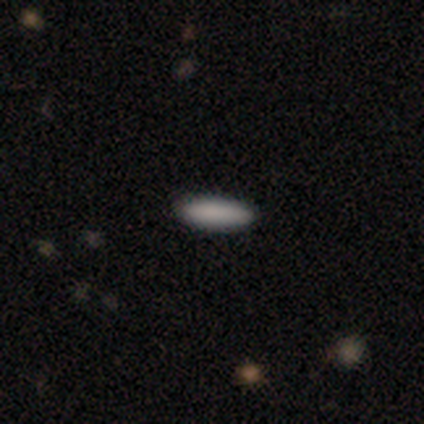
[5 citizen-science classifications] Volunteers were most divided on "how rounded": cigar-shaped: 75%, in between: 25%, round: 0%. More confident: merging — none (100%); smooth or featured — smooth (80%).